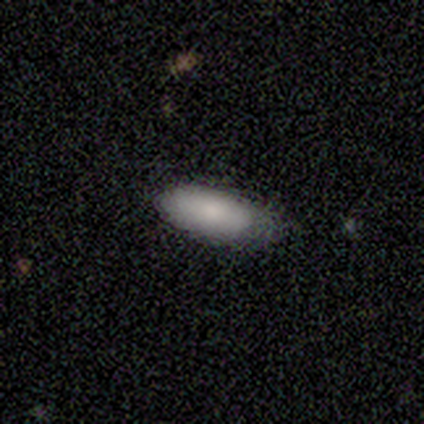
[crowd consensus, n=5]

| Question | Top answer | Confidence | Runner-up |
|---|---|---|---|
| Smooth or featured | smooth | 100% | — |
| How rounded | in between | 100% | — |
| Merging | minor disturbance | 80% | none (20%) |